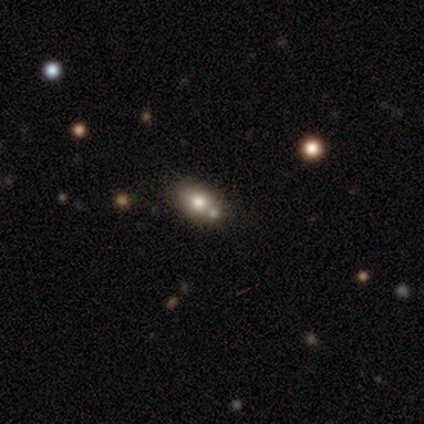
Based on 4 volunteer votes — Smooth or featured? 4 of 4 (100%) said smooth. How rounded? 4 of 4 (100%) said in between. Merging? 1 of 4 (25%, tied with minor disturbance, major disturbance and merger) said none.